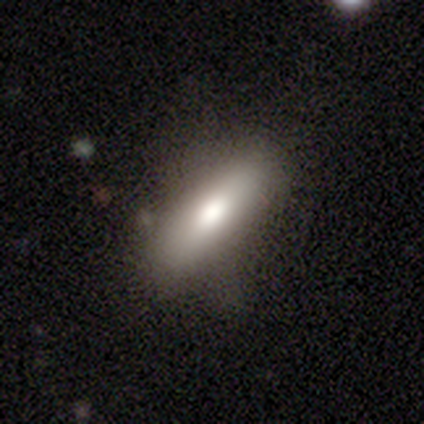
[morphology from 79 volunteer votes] Smooth or featured? 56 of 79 (71%) said smooth. How rounded? 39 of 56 (70%) said in between. Merging? 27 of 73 (37%) said none.